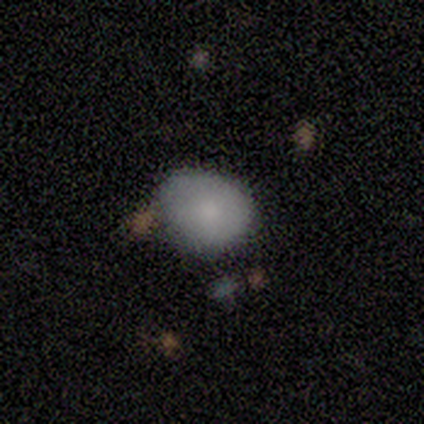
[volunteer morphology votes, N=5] Volunteers were most divided on "how rounded": in between: 60%, round: 40%, cigar-shaped: 0%. More confident: smooth or featured — smooth (100%); merging — none (80%).